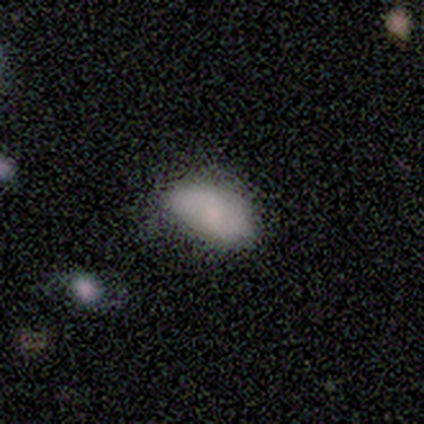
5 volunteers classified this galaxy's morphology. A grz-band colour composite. It shows a featured or disk galaxy (60%) with a weak bar (67%), 2 (100%) loose (100%) spiral arms (67%) and a small central bulge (100%). Merging: none (60%).